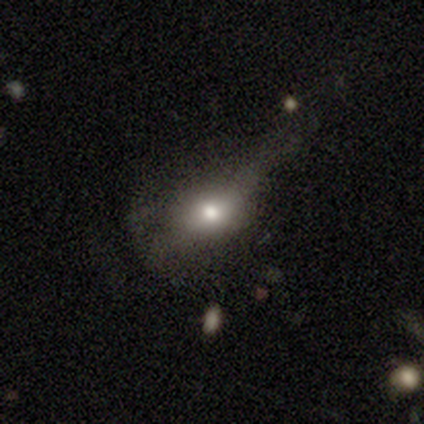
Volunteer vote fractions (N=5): This appears to be a featured or disk galaxy (60%) with no bar (100%), no spiral arms (100%) and a large central bulge (100%). Merging: minor disturbance (40%, tied with major disturbance).